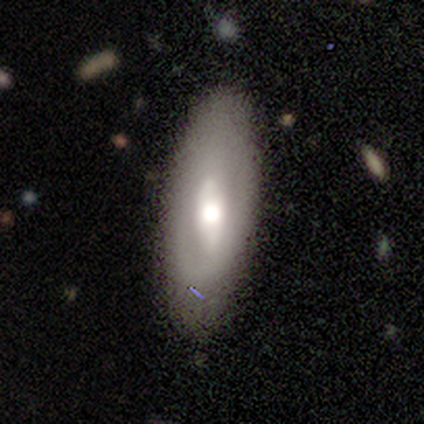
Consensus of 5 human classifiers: smooth_or_featured: featured or disk (p=0.80) [alt: smooth p=0.20]
disk_edge_on: yes (p=0.50) [tied with: no p=0.50]
edge_on_bulge: rounded (p=1.00)
merging: none (p=1.00)